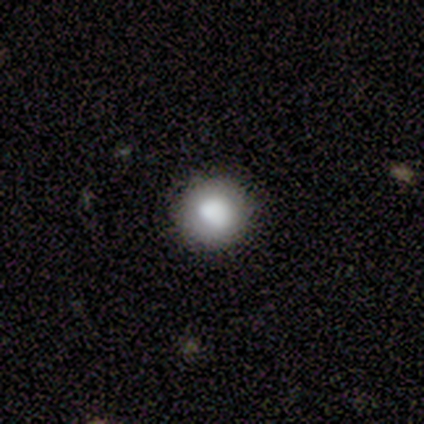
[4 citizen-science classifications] smooth_or_featured: smooth (p=1.00)
how_rounded: round (p=0.75) [alt: in between p=0.25]
merging: none (p=1.00)